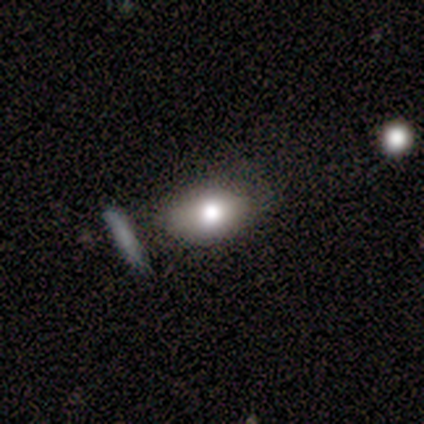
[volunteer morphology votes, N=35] type=smooth (94%); roundness=in between (97%); merging=none (57%).